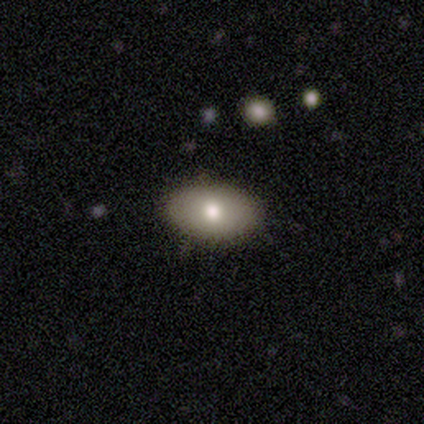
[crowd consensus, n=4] A smooth galaxy with no disk features (75%) that is in between round and cigar-shaped (67%).

Vote fractions:
- Smooth or featured? smooth: 75% / featured or disk: 25% / star or artifact: 0%
- How rounded? in between: 67% / round: 33% / cigar-shaped: 0%
- Merging? none: 100% / minor disturbance: 0% / major disturbance: 0% / merger: 0%